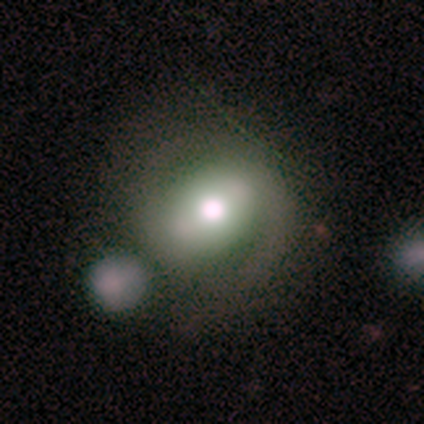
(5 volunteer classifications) This appears to be a featured or disk galaxy (80%) with a strong bar (33%, tied with weak and no), no spiral arms (67%) and a moderate central bulge (67%). Merging: none (60%).